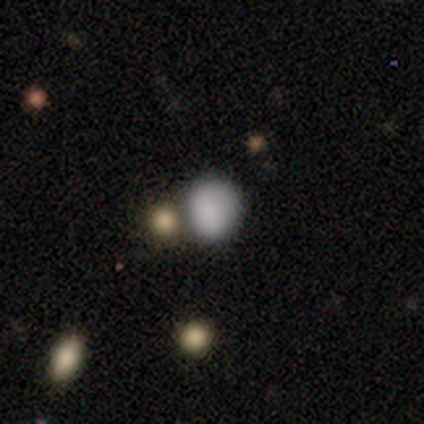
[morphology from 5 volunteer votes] smooth_or_featured: smooth (p=0.80) [alt: star or artifact p=0.20]
how_rounded: round (p=0.75) [alt: in between p=0.25]
merging: none (p=0.50) [alt: minor disturbance p=0.25]